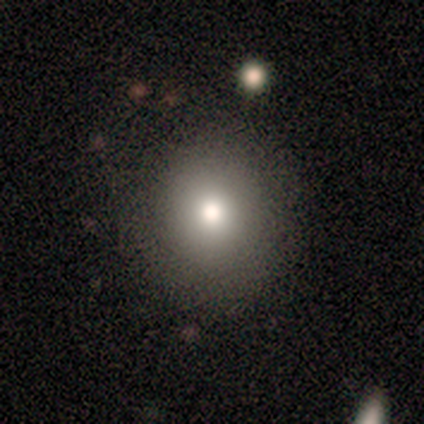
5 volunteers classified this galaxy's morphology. smooth-or-featured: smooth: 60% | featured or disk: 20% | star or artifact: 20%
  how-rounded: round: 100% | in between: 0% | cigar-shaped: 0%
  merging: none: 100% | minor disturbance: 0% | major disturbance: 0% | merger: 0%